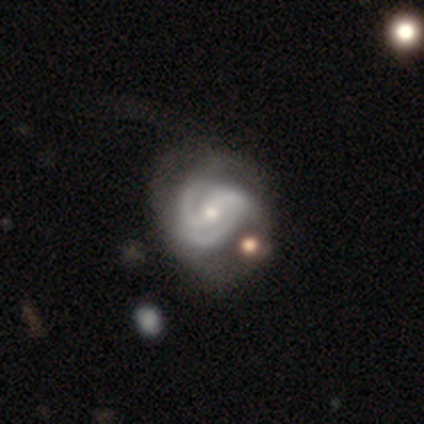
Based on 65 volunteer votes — smooth-or-featured: featured or disk: 91% | smooth: 5% | star or artifact: 5%
  disk-edge-on: no: 98% | yes: 2%
    bar: weak: 45% | no: 38% | strong: 17%
    has-spiral-arms: yes: 97% | no: 3%
      spiral-winding: tight: 61% | medium: 34% | loose: 5%
      spiral-arm-count: 3: 48% | 2: 41% | can't tell: 9% | 1: 2% | 4: 0% | more than 4: 0%
    bulge-size: moderate: 62% | small: 36% | large: 2% | dominant: 0% | none: 0%
  merging: none: 31% | minor disturbance: 29% | merger: 21% | major disturbance: 19%